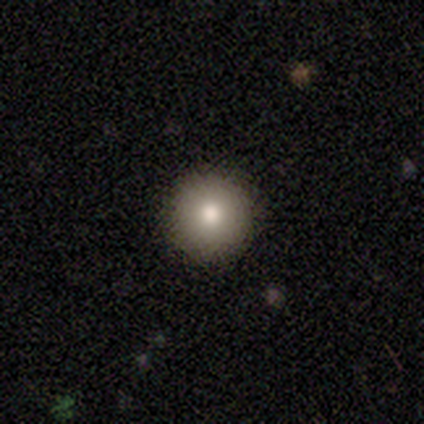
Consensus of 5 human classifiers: Morphology: type=smooth (80%); roundness=round (100%); merging=none (100%).